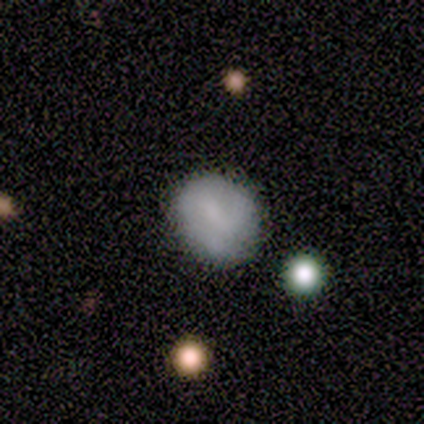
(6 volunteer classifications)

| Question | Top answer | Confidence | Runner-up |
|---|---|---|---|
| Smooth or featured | smooth | 83% | featured or disk (17%) |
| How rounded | in between | 100% | — |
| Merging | none | 50% | tied: minor disturbance (50%) |